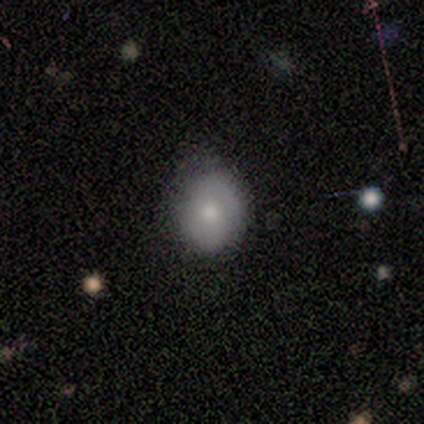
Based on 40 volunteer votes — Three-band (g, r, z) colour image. It shows a smooth galaxy with no disk features (52%) that is round (57%). Merging: none (64%).